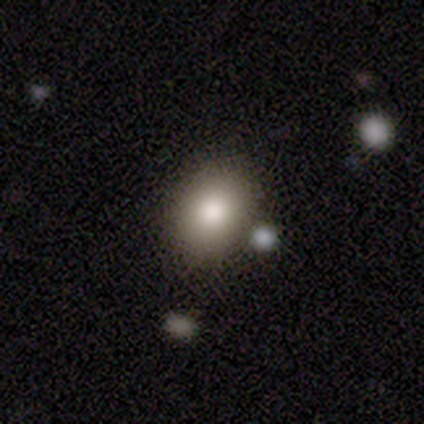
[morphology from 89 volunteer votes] This appears to be a smooth galaxy with no disk features (87%) that is in between round and cigar-shaped (65%). Merging: none (81%).